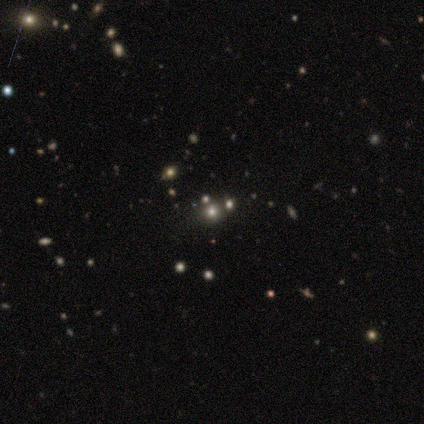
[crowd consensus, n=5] A smooth galaxy with no disk features (60%) that is round (67%). Merging: none (100%).